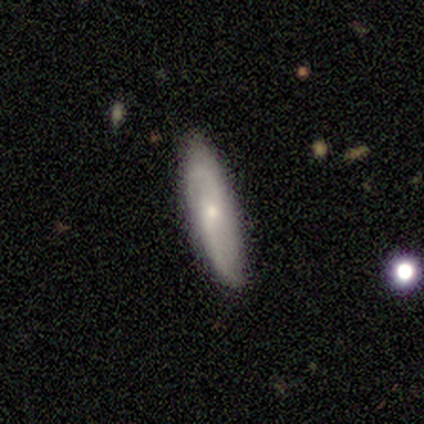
Q: Smooth or featured?
A: featured or disk (66%); runner-up: smooth (32%)
Q: Edge-on disk?
A: no (80%); runner-up: yes (20%)
Q: Bar?
A: no (60%); runner-up: weak (25%)
Q: Spiral arms?
A: yes (90%); runner-up: no (10%)
Q: Spiral winding?
A: loose (56%); runner-up: medium (28%)
Q: Spiral arm count?
A: 2 (89%); runner-up: can't tell (11%)
Q: Bulge size?
A: small (90%); runner-up: moderate (5%)
Q: Merging?
A: none (81%); runner-up: minor disturbance (14%)